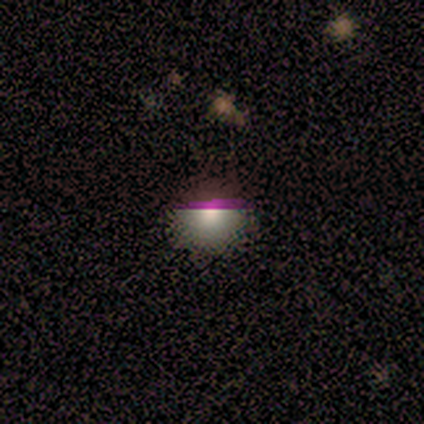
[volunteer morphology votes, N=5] smooth-or-featured: smooth: 60% | featured or disk: 20% | star or artifact: 20%
  how-rounded: round: 100% | in between: 0% | cigar-shaped: 0%
  merging: none: 50% | minor disturbance: 25% | major disturbance: 25% | merger: 0%